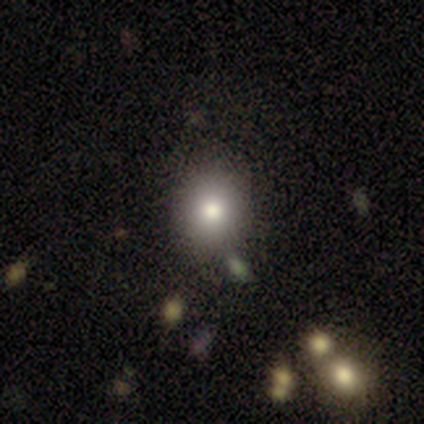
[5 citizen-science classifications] A smooth galaxy with no disk features (80%) that is round (75%).

Vote fractions:
- Smooth or featured? smooth: 80% / featured or disk: 20% / star or artifact: 0%
- How rounded? round: 75% / in between: 25% / cigar-shaped: 0%
- Merging? none: 60% / minor disturbance: 40% / major disturbance: 0% / merger: 0%